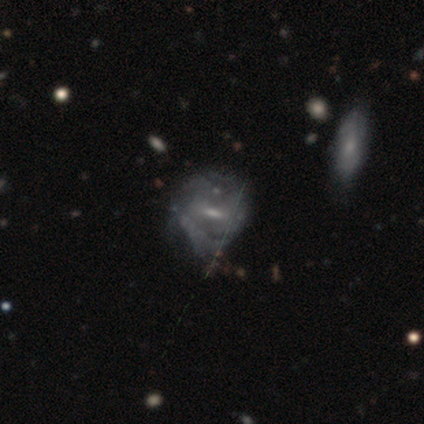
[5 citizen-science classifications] smooth_or_featured: featured or disk (p=0.60) [alt: smooth p=0.20]
disk_edge_on: no (p=1.00)
bar: weak (p=1.00)
has_spiral_arms: no (p=0.67) [alt: yes p=0.33]
bulge_size: moderate (p=0.67) [alt: small p=0.33]
merging: major disturbance (p=0.50) [alt: none p=0.25]